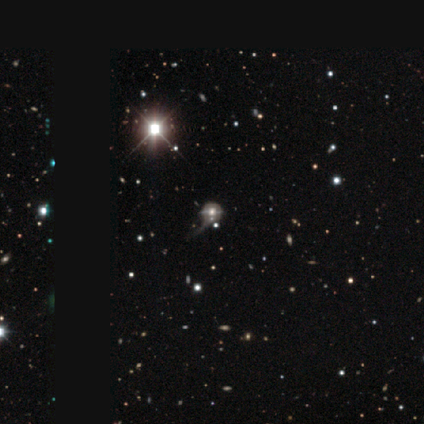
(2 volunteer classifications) A smooth galaxy with no disk features (50%, tied with star or artifact) that is round (100%). Merging: none (100%).